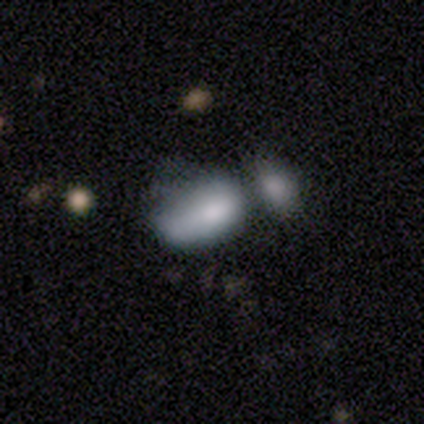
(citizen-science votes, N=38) Smooth or featured? 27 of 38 (71%) said smooth. How rounded? 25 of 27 (93%) said in between. Merging? 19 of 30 (63%) said merger.